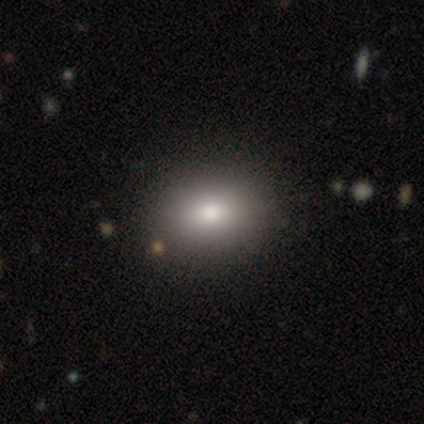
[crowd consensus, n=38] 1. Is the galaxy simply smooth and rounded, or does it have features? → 76% smooth, 18% featured or disk, 5% star or artifact.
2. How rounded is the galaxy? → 72% in between, 24% round, 3% cigar-shaped.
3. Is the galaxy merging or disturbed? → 72% none, 0% minor disturbance, 0% major disturbance, 0% merger.